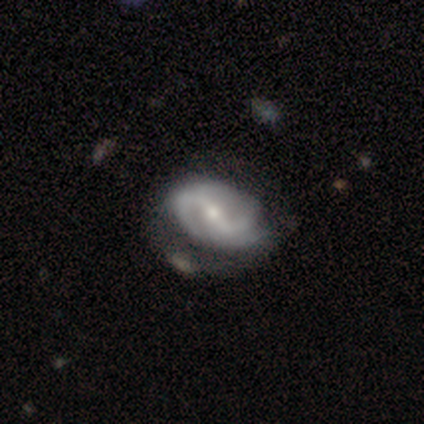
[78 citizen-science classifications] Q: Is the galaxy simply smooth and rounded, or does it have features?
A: featured or disk — 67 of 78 (86%).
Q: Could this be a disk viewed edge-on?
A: no — 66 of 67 (99%).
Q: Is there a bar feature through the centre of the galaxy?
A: strong — 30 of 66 (45%).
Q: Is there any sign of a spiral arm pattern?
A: yes — 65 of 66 (98%).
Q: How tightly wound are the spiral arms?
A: medium — 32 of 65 (49%).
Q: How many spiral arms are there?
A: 2 — 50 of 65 (77%).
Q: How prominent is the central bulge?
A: small — 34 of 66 (52%).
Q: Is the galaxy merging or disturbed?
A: none — 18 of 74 (24%).